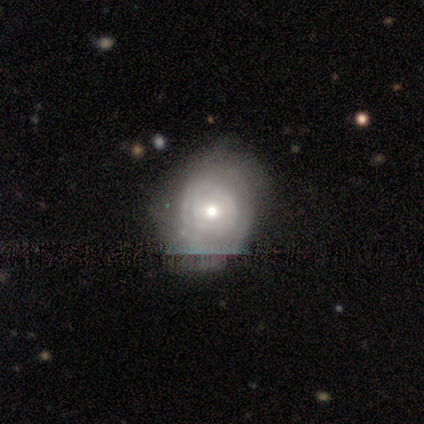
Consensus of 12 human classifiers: A featured or disk galaxy (83%) with no bar (90%), tight (67%) spiral arms (90%) and a moderate central bulge (50%). Merging: none (50%).